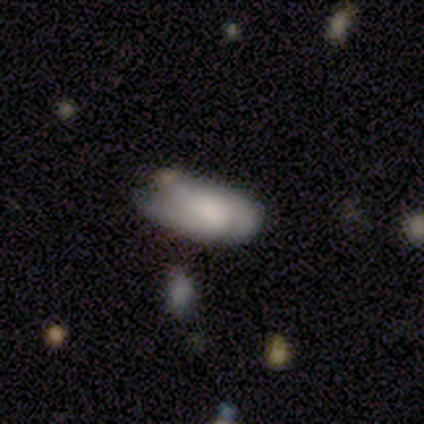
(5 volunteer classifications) This is likely a smooth galaxy (60%). How rounded: clearly in between (100%). Merging: marginally none (40%, tied with minor disturbance).